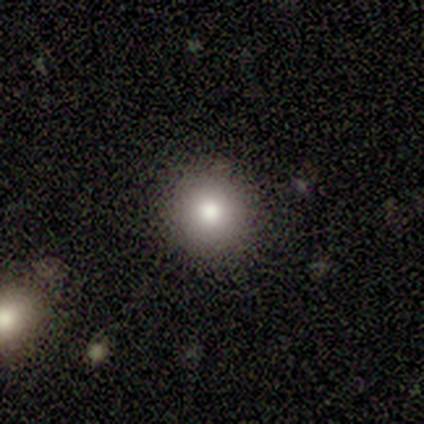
smooth_or_featured: smooth (p=0.80) [alt: star or artifact p=0.20]
how_rounded: round (p=0.75) [alt: in between p=0.25]
merging: none (p=1.00)